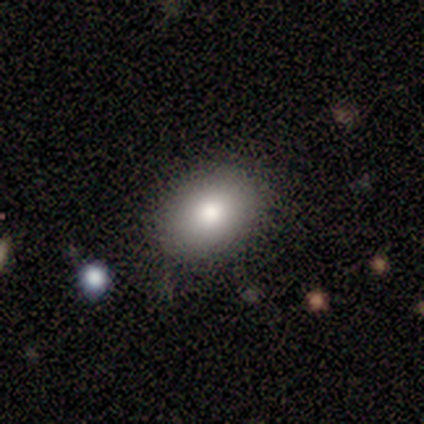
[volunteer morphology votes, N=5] type=smooth (80%); roundness=in between (75%); merging=none (100%).